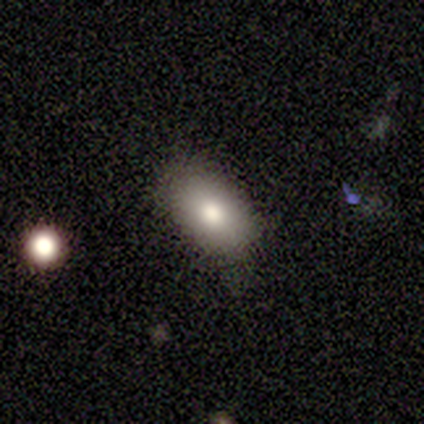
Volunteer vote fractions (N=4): smooth_or_featured: smooth (p=0.75) [alt: star or artifact p=0.25]
how_rounded: in between (p=1.00)
merging: minor disturbance (p=0.67) [alt: none p=0.33]